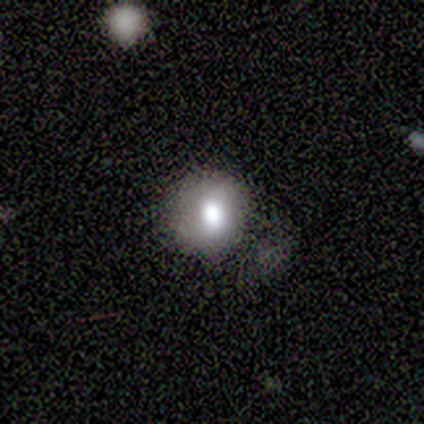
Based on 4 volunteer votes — Smooth or featured? smooth (50%, tied with featured or disk)
How rounded? round (50%, tied with in between)
Merging? none (50%)